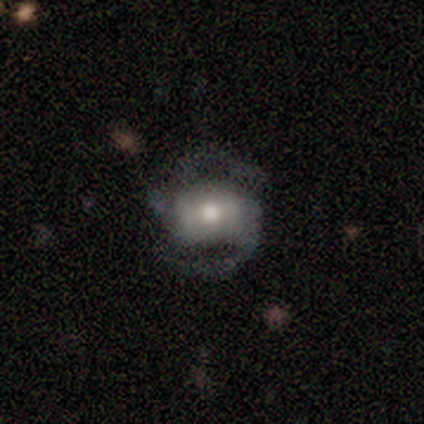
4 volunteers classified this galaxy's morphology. smooth-or-featured: featured or disk: 100% | smooth: 0% | star or artifact: 0%
  disk-edge-on: no: 100% | yes: 0%
    bar: strong: 75% | weak: 25% | no: 0%
    has-spiral-arms: yes: 100% | no: 0%
      spiral-winding: loose: 75% | medium: 25% | tight: 0%
      spiral-arm-count: 2: 100% | 1: 0% | 3: 0% | 4: 0% | more than 4: 0% | can't tell: 0%
    bulge-size: moderate: 50% | large: 25% | small: 25% | dominant: 0% | none: 0%
  merging: none: 100% | minor disturbance: 0% | major disturbance: 0% | merger: 0%